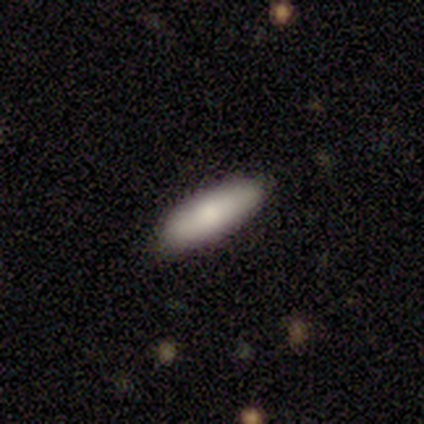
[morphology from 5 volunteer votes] Volunteers were most divided on "how rounded": in between: 75%, cigar-shaped: 25%, round: 0%. More confident: smooth or featured — smooth (80%); merging — none (75%).